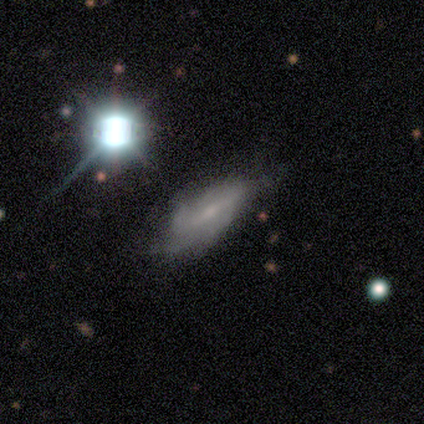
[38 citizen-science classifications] Smooth or featured?
  - featured or disk: 68% *
  - smooth: 18%
  - star or artifact: 13%
Edge-on disk?
  - no: 81% *
  - yes: 19%
Bar?
  - weak: 52% *
  - strong: 24%
  - no: 24%
Spiral arms?
  - yes: 86% *
  - no: 14%
Spiral winding?
  - tight: 39% * (tied)
  - medium: 39% * (tied)
  - loose: 22%
Spiral arm count?
  - can't tell: 50% *
  - 2: 33%
  - 1: 6%
  - 3: 6%
  - 4: 6%
  - more than 4: 0%
Bulge size?
  - small: 48% *
  - none: 38%
  - moderate: 10%
  - large: 5%
  - dominant: 0%
Merging?
  - none: 42% *
  - major disturbance: 18%
  - minor disturbance: 12%
  - merger: 0%